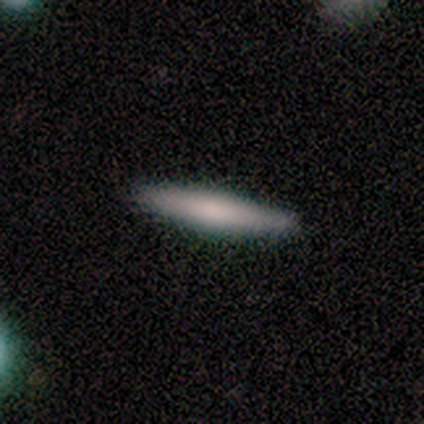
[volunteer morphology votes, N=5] Overall: smooth (80%). How rounded: cigar-shaped (100%). Merging: none (80%).